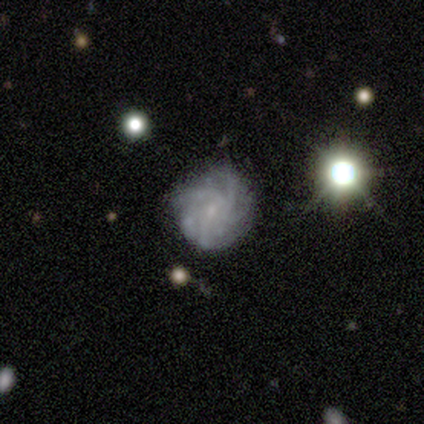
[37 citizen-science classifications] smooth_or_featured: featured or disk (p=0.73) [alt: star or artifact p=0.16]
disk_edge_on: no (p=0.96) [alt: yes p=0.04]
bar: no (p=0.85) [alt: weak p=0.12]
has_spiral_arms: yes (p=0.96) [alt: no p=0.04]
spiral_winding: tight (p=0.56) [alt: medium p=0.32]
spiral_arm_count: can't tell (p=0.40) [alt: 4 p=0.28]
bulge_size: small (p=0.69) [alt: none p=0.23]
merging: none (p=0.71) [alt: minor disturbance p=0.19]